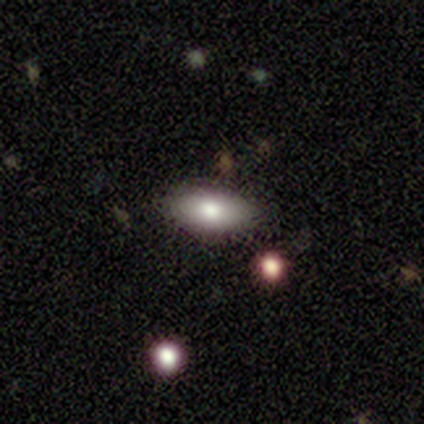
A smooth galaxy with no disk features (80%) that is in between round and cigar-shaped (100%). Merging: none (100%).